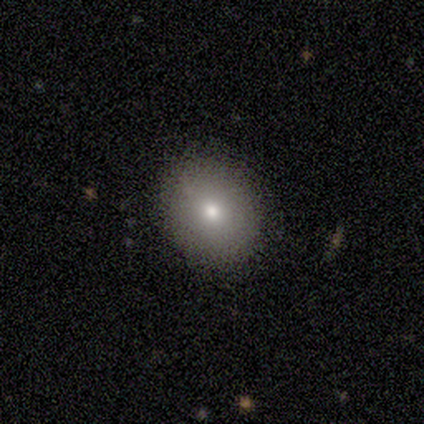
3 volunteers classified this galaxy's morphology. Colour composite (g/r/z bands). It shows a smooth galaxy with no disk features (67%) that is round (100%). Merging: none (100%).